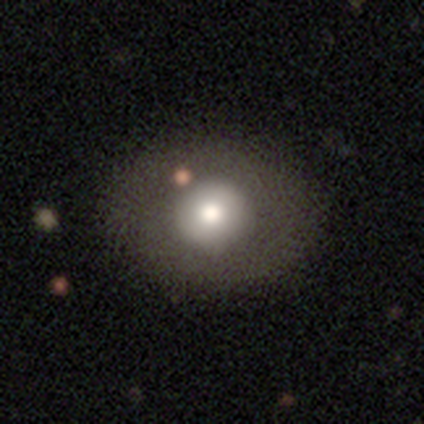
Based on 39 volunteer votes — Smooth or featured? 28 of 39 (72%) said smooth. How rounded? 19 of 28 (68%) said round. Merging? 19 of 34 (56%) said none.